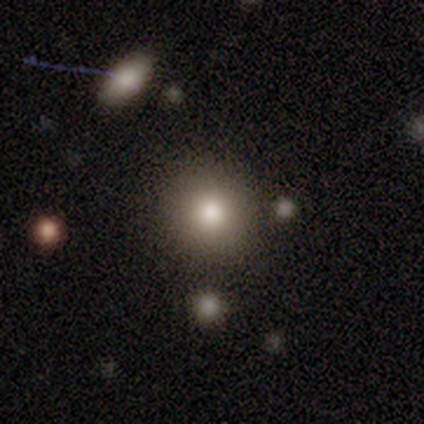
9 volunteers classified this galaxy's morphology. This appears to be a smooth galaxy with no disk features (67%) that is round (83%). Merging: none (100%).